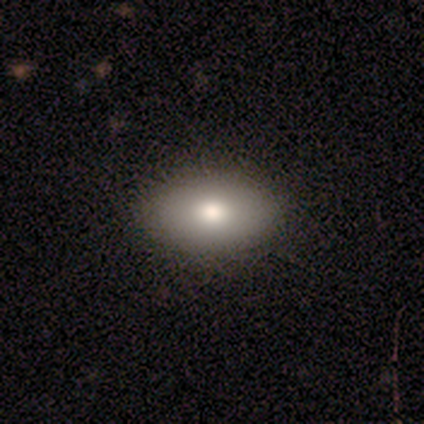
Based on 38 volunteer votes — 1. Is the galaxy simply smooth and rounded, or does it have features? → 87% smooth, 13% featured or disk, 0% star or artifact.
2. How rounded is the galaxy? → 88% in between, 12% round, 0% cigar-shaped.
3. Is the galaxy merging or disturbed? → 87% none, 11% minor disturbance, 3% major disturbance, 0% merger.